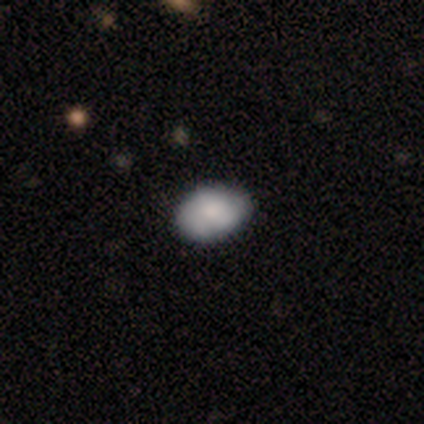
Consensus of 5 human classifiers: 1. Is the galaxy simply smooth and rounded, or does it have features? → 100% smooth, 0% featured or disk, 0% star or artifact.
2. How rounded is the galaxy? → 60% in between, 40% round, 0% cigar-shaped.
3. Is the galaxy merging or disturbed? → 80% none, 20% minor disturbance, 0% major disturbance, 0% merger.